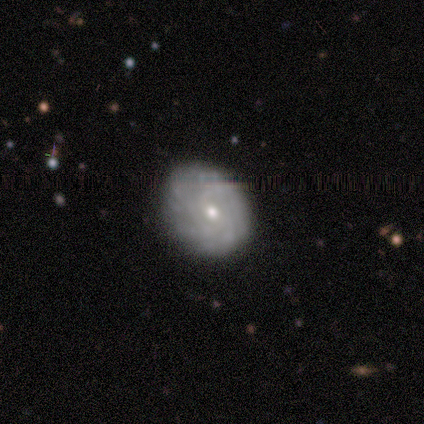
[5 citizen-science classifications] Overall: featured or disk (100%). Edge-on disk: no (100%). Bar: no (80%). Spiral arms: yes (100%). Spiral arm count: more than 4 (40%, tied with can't tell). Spiral winding: tight (80%). Bulge size: small (80%). Merging: none (100%).